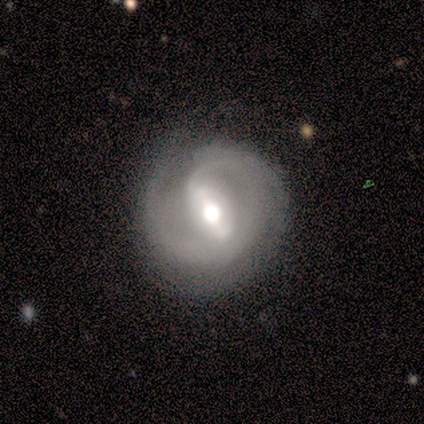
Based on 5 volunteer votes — Q: Smooth or featured?
A: featured or disk (100%)
Q: Edge-on disk?
A: no (100%)
Q: Bar?
A: strong (60%); runner-up: weak (40%)
Q: Spiral arms?
A: yes (100%)
Q: Spiral winding?
A: tight (60%); runner-up: medium (40%)
Q: Spiral arm count?
A: 1 (40%); runner-up: 2 (20%)
Q: Bulge size?
A: large (80%); runner-up: moderate (20%)
Q: Merging?
A: minor disturbance (60%); runner-up: none (40%)